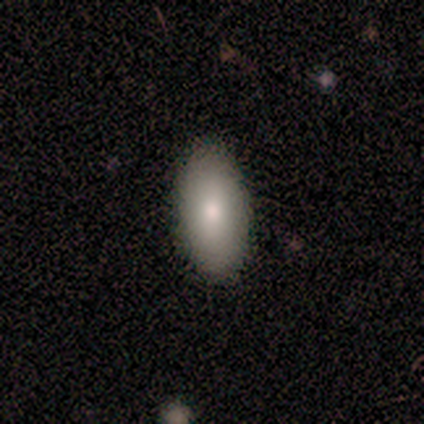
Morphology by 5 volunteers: Smooth or featured? 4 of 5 (80%) said smooth. How rounded? 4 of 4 (100%) said in between. Merging? 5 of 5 (100%) said none.